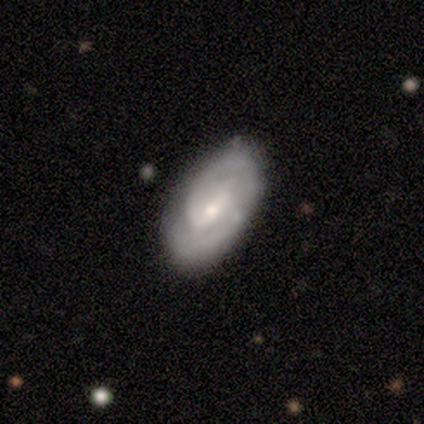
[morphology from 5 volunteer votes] A featured or disk galaxy (60%) with a strong bar (33%, tied with weak and no), medium (67%) spiral arms (100%) and a moderate central bulge (67%). Merging: none (75%).